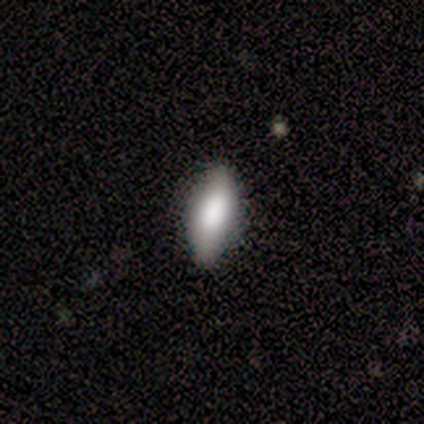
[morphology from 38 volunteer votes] A smooth galaxy with no disk features (74%) that is in between round and cigar-shaped (61%).

Vote fractions:
- Smooth or featured? smooth: 74% / featured or disk: 21% / star or artifact: 5%
- How rounded? in between: 61% / cigar-shaped: 39% / round: 0%
- Merging? none: 81% / minor disturbance: 14% / major disturbance: 3% / merger: 3%